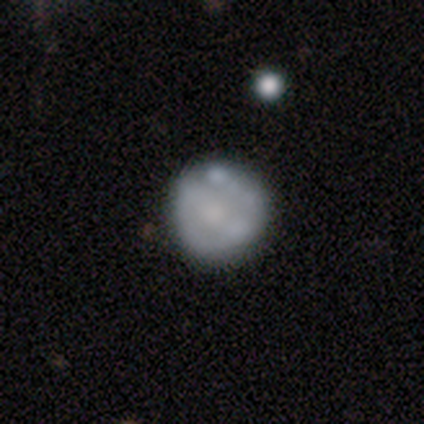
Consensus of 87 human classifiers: Smooth or featured? featured or disk (56%)
Edge-on disk? no (100%)
Bar? no (80%)
Spiral arms? no (84%)
Bulge size? moderate (35%)
Merging? none (63%)